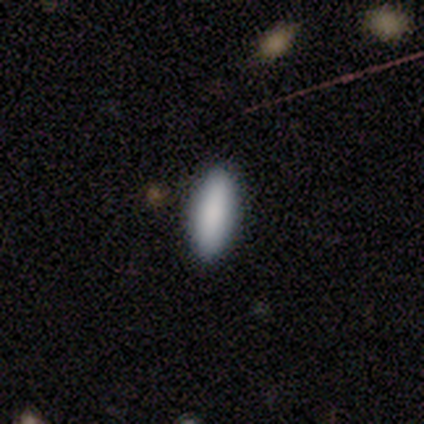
Morphology: type=smooth (100%); roundness=in between (60%); merging=none (100%).